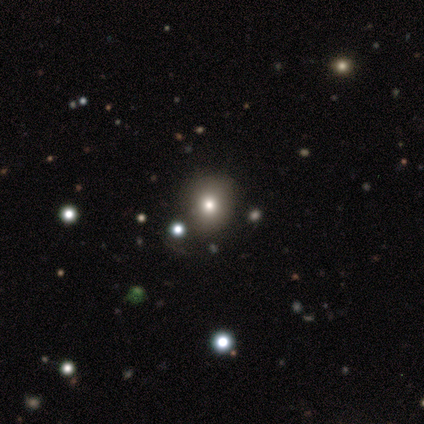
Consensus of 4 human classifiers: Morphology: type=smooth (50%, tied with star or artifact); roundness=round (100%); merging=none (50%, tied with merger).